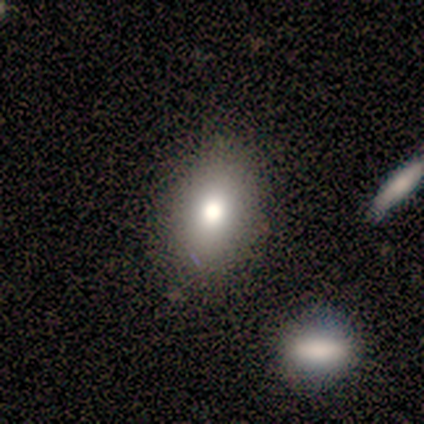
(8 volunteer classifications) Volunteers were most divided on "how rounded": in between: 60%, round: 40%, cigar-shaped: 0%. More confident: merging — none (80%); smooth or featured — smooth (62%).